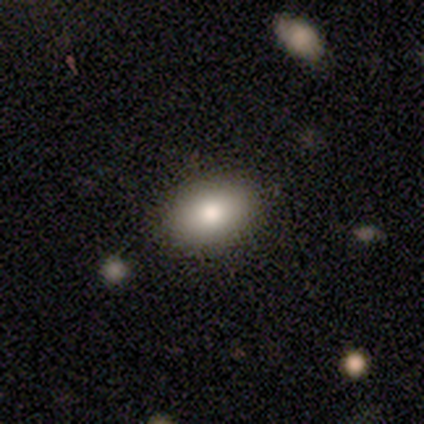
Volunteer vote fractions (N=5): Smooth or featured? 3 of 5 (60%) said smooth. How rounded? 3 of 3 (100%) said in between. Merging? 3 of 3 (100%) said none.